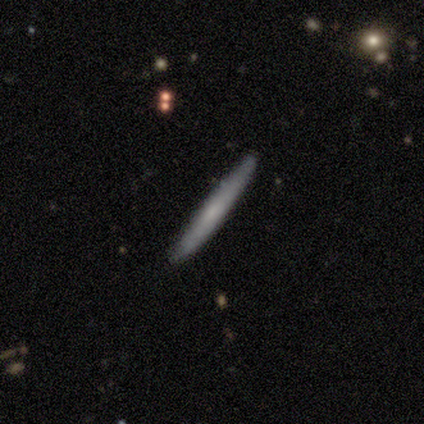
Smooth or featured: smooth — 80% (star or artifact — 20%)
How rounded: cigar-shaped — 100%
Merging: none — 100%